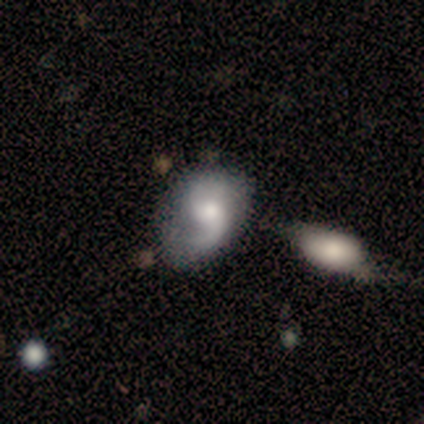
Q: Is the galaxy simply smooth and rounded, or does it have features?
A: featured or disk — 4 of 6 (67%).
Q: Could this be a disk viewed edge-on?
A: no — 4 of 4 (100%).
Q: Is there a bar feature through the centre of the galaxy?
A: no — 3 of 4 (75%).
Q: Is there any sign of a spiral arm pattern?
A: yes — 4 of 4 (100%).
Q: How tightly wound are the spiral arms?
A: medium — 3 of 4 (75%).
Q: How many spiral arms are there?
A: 1 — 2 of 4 (50%).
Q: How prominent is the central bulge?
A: moderate — 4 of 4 (100%).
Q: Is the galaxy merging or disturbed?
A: none — 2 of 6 (33%, tied with minor disturbance).